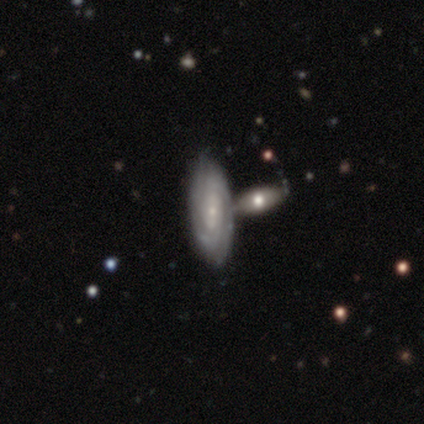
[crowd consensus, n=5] smooth-or-featured: featured or disk: 100% | smooth: 0% | star or artifact: 0%
  disk-edge-on: no: 100% | yes: 0%
    bar: weak: 60% | no: 40% | strong: 0%
    has-spiral-arms: yes: 100% | no: 0%
      spiral-winding: tight: 60% | medium: 20% | loose: 20%
      spiral-arm-count: can't tell: 80% | 3: 20% | 1: 0% | 2: 0% | 4: 0% | more than 4: 0%
    bulge-size: small: 80% | moderate: 20% | dominant: 0% | large: 0% | none: 0%
  merging: merger: 80% | none: 20% | minor disturbance: 0% | major disturbance: 0%